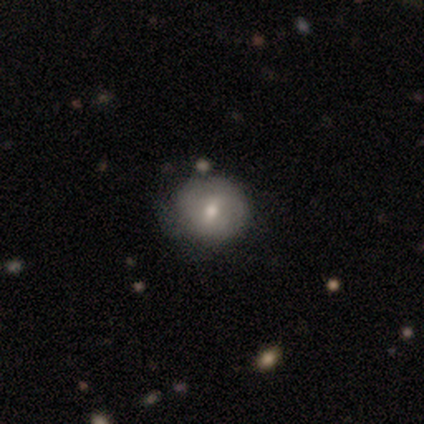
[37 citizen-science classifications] smooth_or_featured: featured or disk (p=0.51) [alt: smooth p=0.46]
disk_edge_on: no (p=0.95) [alt: yes p=0.05]
bar: no (p=0.56) [alt: weak p=0.33]
has_spiral_arms: no (p=0.67) [alt: yes p=0.33]
bulge_size: small (p=0.56) [alt: moderate p=0.44]
merging: none (p=0.58) [alt: minor disturbance p=0.36]